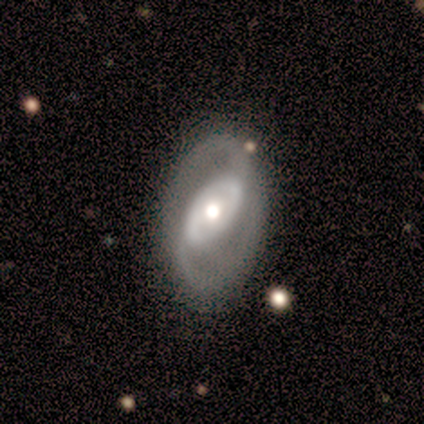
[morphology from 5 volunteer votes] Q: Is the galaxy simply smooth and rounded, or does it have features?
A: featured or disk — 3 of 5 (60%).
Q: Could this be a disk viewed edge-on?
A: no — 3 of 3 (100%).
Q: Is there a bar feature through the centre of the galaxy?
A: no — 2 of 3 (67%).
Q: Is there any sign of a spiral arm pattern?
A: yes — 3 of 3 (100%).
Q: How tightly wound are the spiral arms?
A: tight — 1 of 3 (33%, tied with medium and loose).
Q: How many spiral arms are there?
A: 2 — 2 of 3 (67%).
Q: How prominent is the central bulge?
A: moderate — 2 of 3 (67%).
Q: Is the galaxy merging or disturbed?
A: none — 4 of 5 (80%).